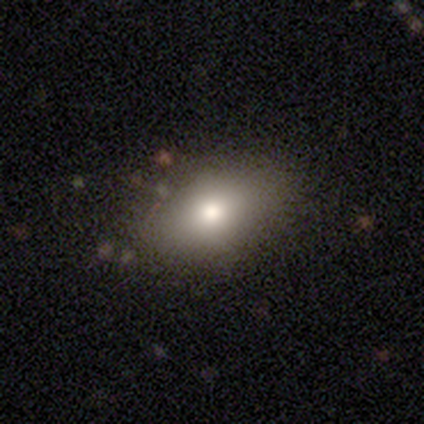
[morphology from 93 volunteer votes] A smooth galaxy with no disk features (71%) that is in between round and cigar-shaped (85%). Merging: none (82%).